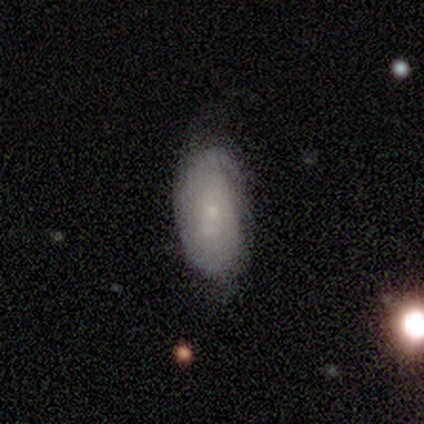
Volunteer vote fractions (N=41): Volunteers were most divided on "smooth or featured": featured or disk: 49%, smooth: 46%, star or artifact: 5%. More confident: edge-on disk — no (95%); spiral arms — yes (89%); bulge size — small (89%); bar — no (79%); spiral winding — tight (59%); spiral arm count — can't tell (59%); merging — none (56%).